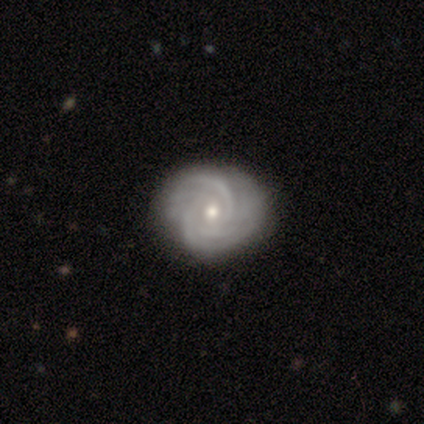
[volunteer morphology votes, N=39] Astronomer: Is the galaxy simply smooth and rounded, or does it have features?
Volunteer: featured or disk — 92%.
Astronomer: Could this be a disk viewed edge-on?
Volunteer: no — 100%.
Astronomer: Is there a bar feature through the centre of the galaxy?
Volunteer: no — 81%.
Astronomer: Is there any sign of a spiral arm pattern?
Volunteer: yes — 97%.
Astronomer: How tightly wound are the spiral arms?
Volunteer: tight — 89%.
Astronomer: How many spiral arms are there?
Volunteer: can't tell — 29% (runner-up: 3, 26%).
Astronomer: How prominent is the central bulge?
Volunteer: moderate — 53% (runner-up: small, 47%).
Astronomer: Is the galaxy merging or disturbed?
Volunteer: none — 84%.